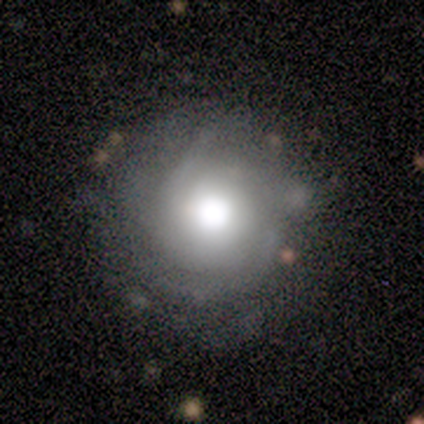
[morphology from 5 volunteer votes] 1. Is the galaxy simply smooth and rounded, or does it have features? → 60% smooth, 40% featured or disk, 0% star or artifact.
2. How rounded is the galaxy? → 100% round, 0% in between, 0% cigar-shaped.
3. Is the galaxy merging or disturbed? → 80% none, 20% minor disturbance, 0% major disturbance, 0% merger.